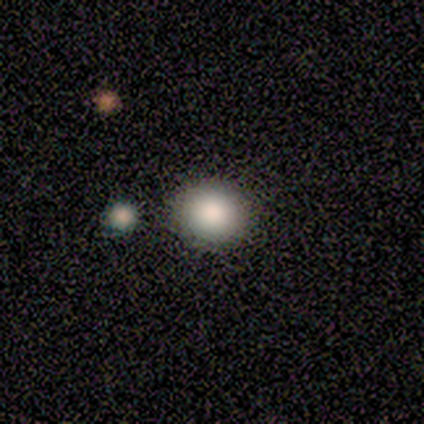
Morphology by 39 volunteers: Smooth or featured?
  - smooth: 77% *
  - featured or disk: 13%
  - star or artifact: 10%
How rounded?
  - round: 87% *
  - in between: 13%
  - cigar-shaped: 0%
Merging?
  - none: 57% *
  - merger: 29%
  - major disturbance: 3%
  - minor disturbance: 0%